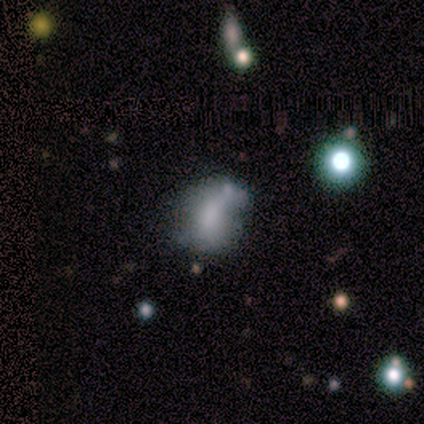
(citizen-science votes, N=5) smooth-or-featured: smooth: 80% | featured or disk: 20% | star or artifact: 0%
  how-rounded: in between: 100% | round: 0% | cigar-shaped: 0%
  merging: none: 80% | minor disturbance: 20% | major disturbance: 0% | merger: 0%